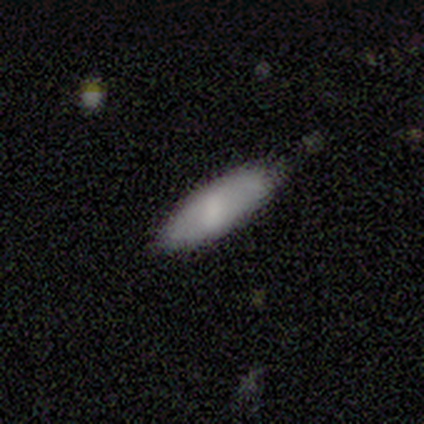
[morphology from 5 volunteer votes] Overall: smooth (80%). How rounded: in between (75%). Merging: none (75%).